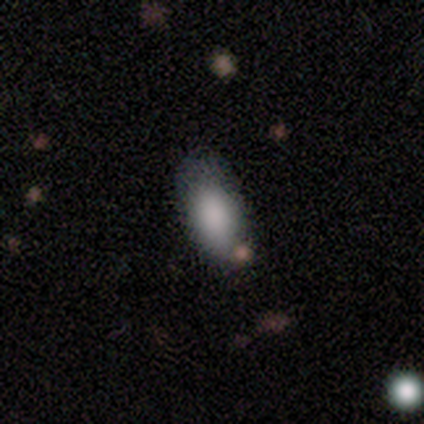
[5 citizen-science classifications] Smooth or featured? 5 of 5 (100%) said smooth. How rounded? 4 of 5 (80%) said in between. Merging? 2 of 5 (40%) said minor disturbance.